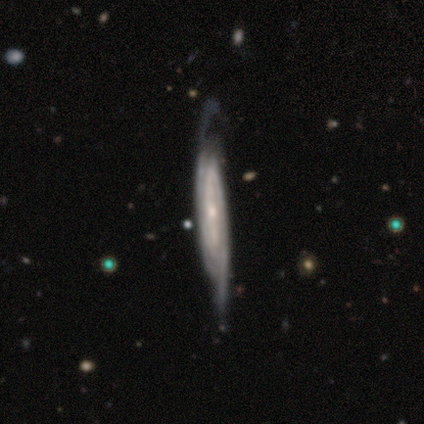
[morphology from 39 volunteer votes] Smooth or featured? 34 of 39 (87%) said featured or disk. Edge-on disk? 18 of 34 (53%) said yes. Edge-on bulge? 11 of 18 (61%) said none. Merging? 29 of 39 (74%) said none.